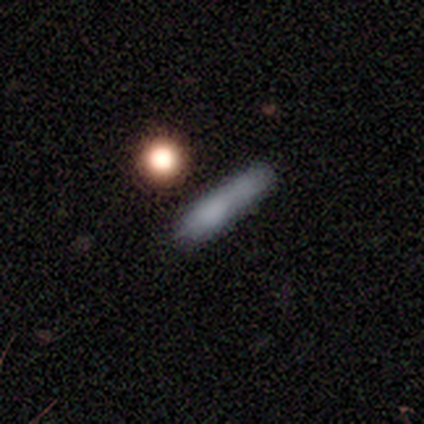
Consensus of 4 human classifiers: smooth 100%, featured or disk 0%, star or artifact 0%. Down the decision tree: how rounded — cigar-shaped (75%); merging — none (50%).